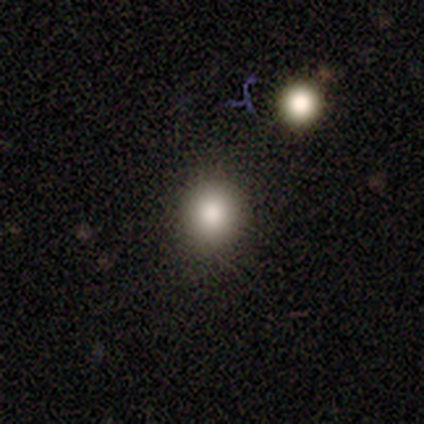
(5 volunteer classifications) A smooth galaxy with no disk features (60%) that is round (100%).

Vote fractions:
- Smooth or featured? smooth: 60% / star or artifact: 40% / featured or disk: 0%
- How rounded? round: 100% / in between: 0% / cigar-shaped: 0%
- Merging? none: 67% / minor disturbance: 33% / major disturbance: 0% / merger: 0%